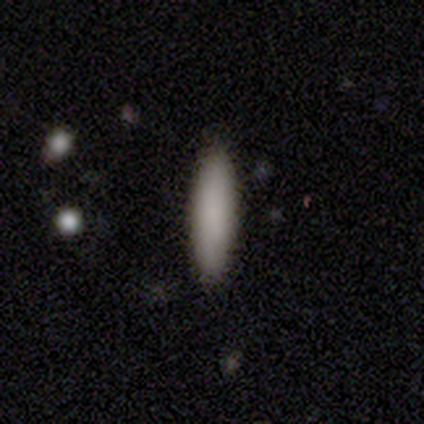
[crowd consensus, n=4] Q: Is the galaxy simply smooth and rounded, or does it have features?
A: smooth — 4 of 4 (100%).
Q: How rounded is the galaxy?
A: cigar-shaped — 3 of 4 (75%).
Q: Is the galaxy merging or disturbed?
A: none — 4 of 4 (100%).